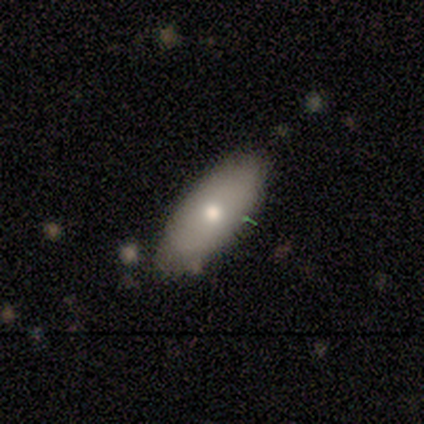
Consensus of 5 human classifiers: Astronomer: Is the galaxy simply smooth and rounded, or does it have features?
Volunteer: smooth — 80%.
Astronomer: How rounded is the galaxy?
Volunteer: in between — 100%.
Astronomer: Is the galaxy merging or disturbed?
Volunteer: none — 60% (runner-up: minor disturbance, 40%).